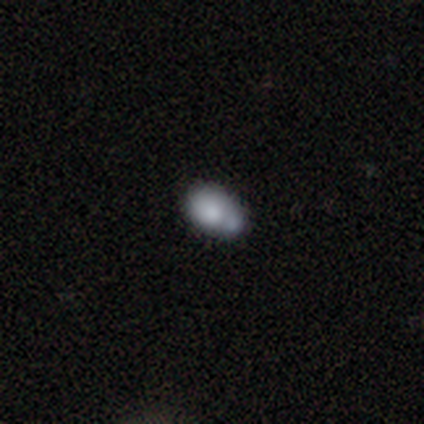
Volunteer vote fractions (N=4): smooth_or_featured: smooth (p=0.75) [alt: featured or disk p=0.25]
how_rounded: in between (p=1.00)
merging: none (p=0.25) [tied with: minor disturbance p=0.25, major disturbance p=0.25, merger p=0.25]